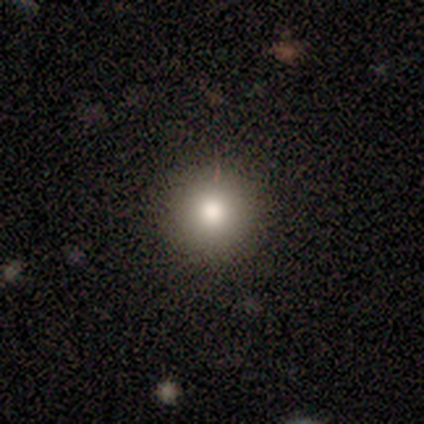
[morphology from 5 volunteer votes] smooth 100%, featured or disk 0%, star or artifact 0%. Down the decision tree: how rounded — round (100%); merging — none (80%).